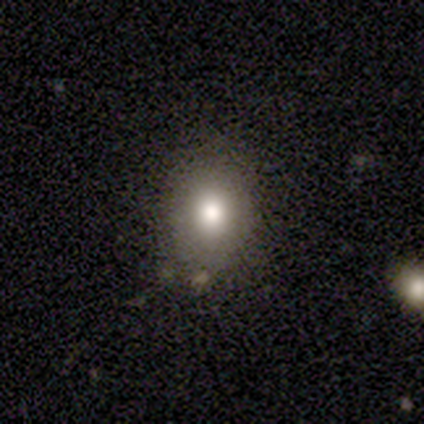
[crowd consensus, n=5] Morphology: type=smooth (80%); roundness=in between (75%); merging=none (75%).